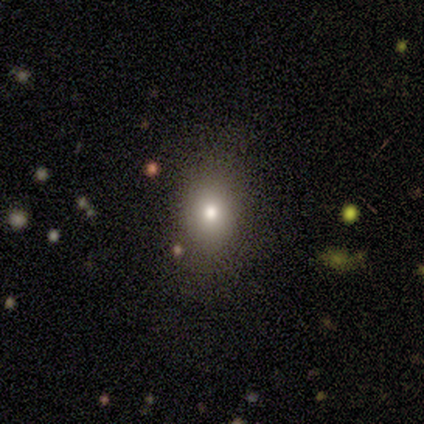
Q: Smooth or featured?
A: smooth (100%)
Q: How rounded?
A: round (100%)
Q: Merging?
A: none (75%); runner-up: minor disturbance (25%)